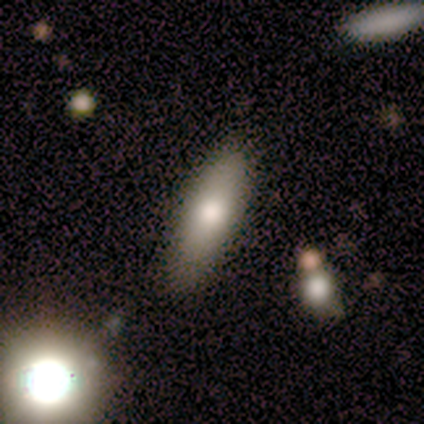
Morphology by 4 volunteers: A smooth galaxy with no disk features (75%) that is cigar-shaped (67%). Merging: none (100%).